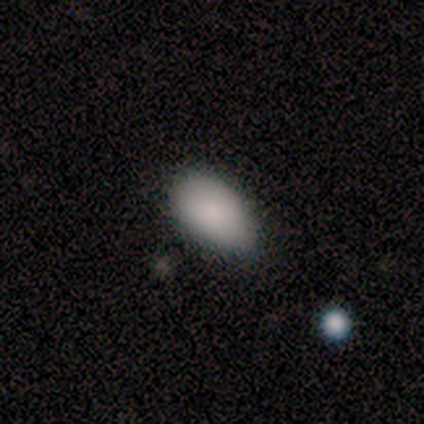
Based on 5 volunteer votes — Smooth or featured? 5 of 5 (100%) said smooth. How rounded? 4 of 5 (80%) said in between. Merging? 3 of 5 (60%) said minor disturbance.